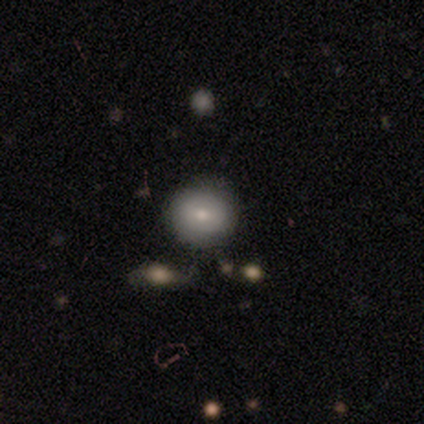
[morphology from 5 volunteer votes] smooth-or-featured: smooth: 60% | featured or disk: 40% | star or artifact: 0%
  how-rounded: round: 100% | in between: 0% | cigar-shaped: 0%
  merging: none: 80% | minor disturbance: 20% | major disturbance: 0% | merger: 0%